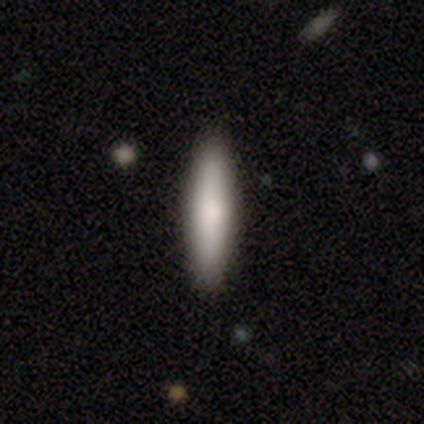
Smooth or featured? smooth (81%)
How rounded? cigar-shaped (87%)
Merging? none (87%)